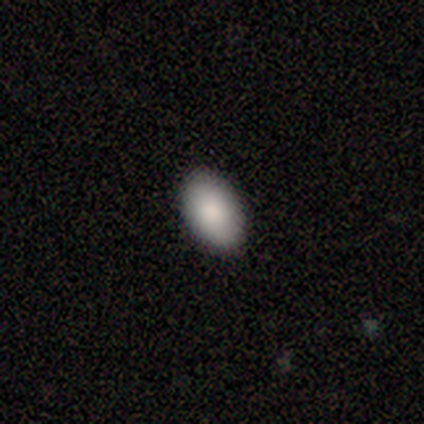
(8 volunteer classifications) Smooth or featured? 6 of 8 (75%) said smooth. How rounded? 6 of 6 (100%) said in between. Merging? 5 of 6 (83%) said none.